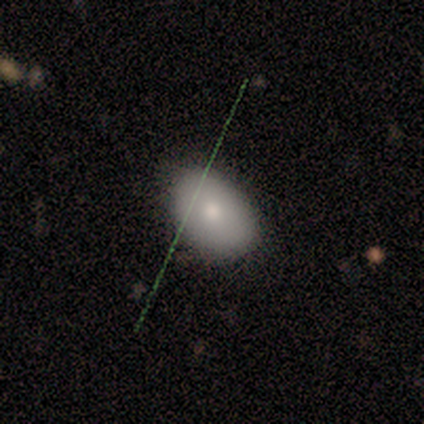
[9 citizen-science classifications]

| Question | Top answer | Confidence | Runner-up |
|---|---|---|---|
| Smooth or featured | smooth | 78% | featured or disk (11%) |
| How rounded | in between | 71% | round (29%) |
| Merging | none | 100% | — |